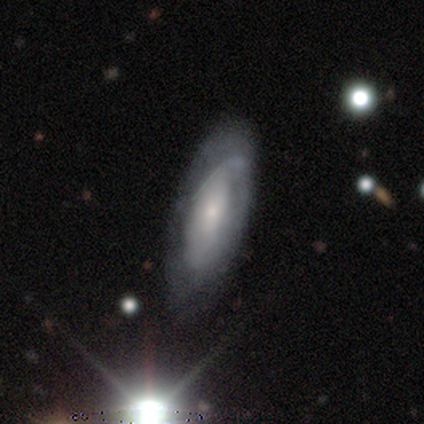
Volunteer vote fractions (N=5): Smooth or featured?
  - featured or disk: 80% *
  - smooth: 20%
  - star or artifact: 0%
Edge-on disk?
  - no: 100% *
  - yes: 0%
Bar?
  - no: 75% *
  - weak: 25%
  - strong: 0%
Spiral arms?
  - no: 75% *
  - yes: 25%
Bulge size?
  - small: 75% *
  - large: 25%
  - dominant: 0%
  - moderate: 0%
  - none: 0%
Merging?
  - none: 60% *
  - minor disturbance: 40%
  - major disturbance: 0%
  - merger: 0%